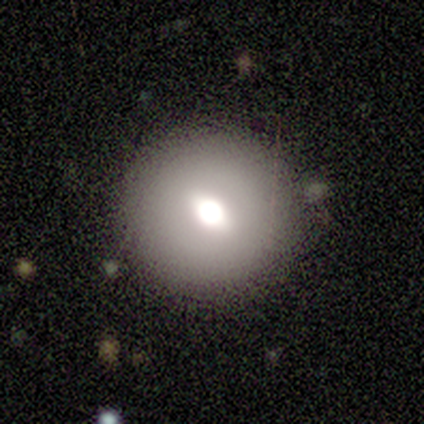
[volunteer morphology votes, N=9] Smooth or featured? 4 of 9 (44%, tied with featured or disk) said smooth. How rounded? 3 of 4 (75%) said round. Merging? 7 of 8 (88%) said none.